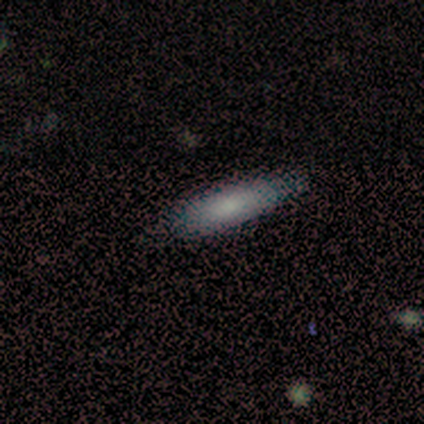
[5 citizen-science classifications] smooth_or_featured: smooth (p=1.00)
how_rounded: cigar-shaped (p=0.80) [alt: in between p=0.20]
merging: none (p=0.80) [alt: minor disturbance p=0.20]